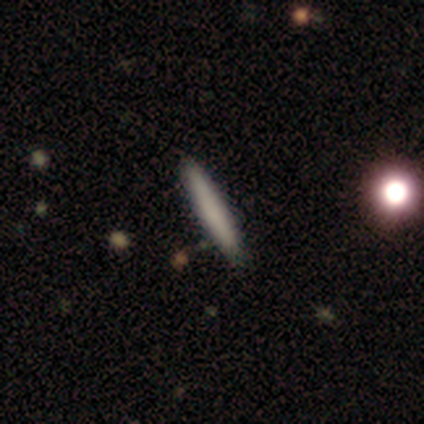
Smooth or featured? 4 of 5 (80%) said smooth. How rounded? 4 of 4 (100%) said cigar-shaped. Merging? 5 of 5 (100%) said none.